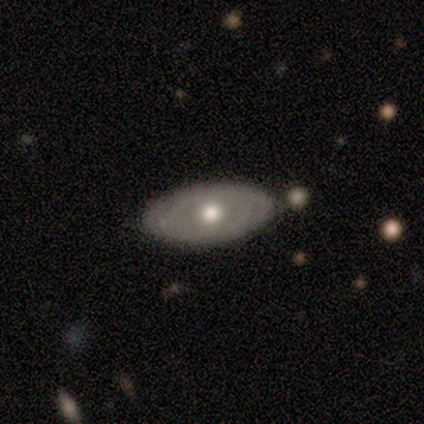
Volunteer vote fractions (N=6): Smooth or featured? 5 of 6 (83%) said featured or disk. Edge-on disk? 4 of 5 (80%) said no. Bar? 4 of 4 (100%) said no. Spiral arms? 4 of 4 (100%) said no. Bulge size? 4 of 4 (100%) said moderate. Merging? 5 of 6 (83%) said none.